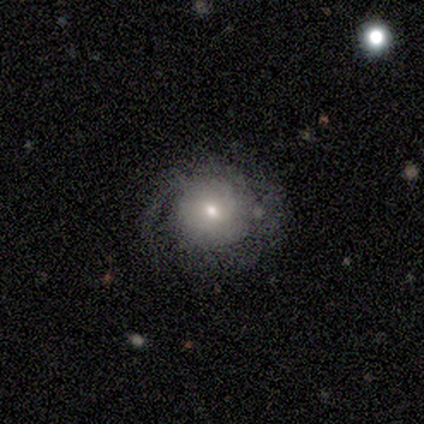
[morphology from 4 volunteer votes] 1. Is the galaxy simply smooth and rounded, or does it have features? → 50% featured or disk, 25% smooth, 25% star or artifact.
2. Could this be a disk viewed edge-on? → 100% no, 0% yes.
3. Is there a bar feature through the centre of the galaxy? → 50% weak (tied), 50% no (tied), 0% strong.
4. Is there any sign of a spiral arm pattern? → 50% yes (tied), 50% no (tied).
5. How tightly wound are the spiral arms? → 100% medium, 0% tight, 0% loose.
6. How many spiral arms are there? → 100% 2, 0% 1, 0% 3, 0% 4, 0% more than 4, 0% can't tell.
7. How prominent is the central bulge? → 100% small, 0% dominant, 0% large, 0% moderate, 0% none.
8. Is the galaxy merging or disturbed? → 67% major disturbance, 33% none, 0% minor disturbance, 0% merger.